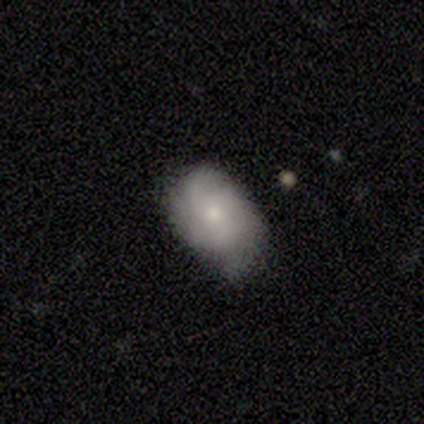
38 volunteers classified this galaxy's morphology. A featured or disk galaxy (47%) with no bar (72%), 3 (44%) tight (56%) spiral arms (89%) and a small central bulge (61%). Merging: none (69%).